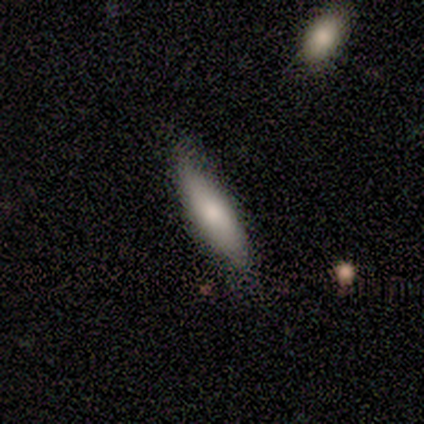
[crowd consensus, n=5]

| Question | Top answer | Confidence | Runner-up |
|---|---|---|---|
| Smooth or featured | smooth | 40% | tied: featured or disk (40%) |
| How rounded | cigar-shaped | 100% | — |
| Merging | minor disturbance | 75% | none (25%) |